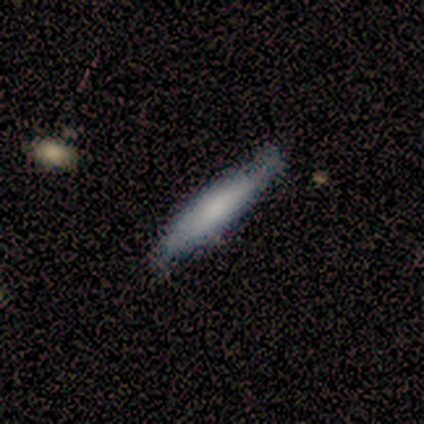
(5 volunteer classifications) Morphology: type=smooth (100%); roundness=cigar-shaped (100%); merging=none (100%).